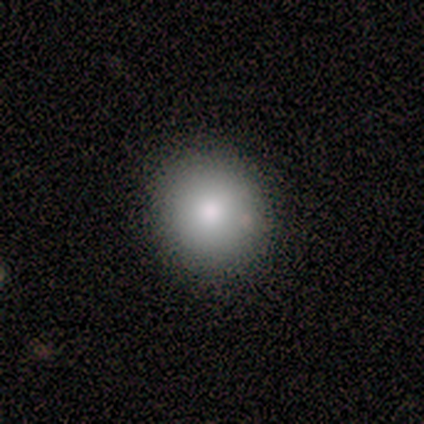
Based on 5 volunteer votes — Smooth or featured?
  - smooth: 100% *
  - featured or disk: 0%
  - star or artifact: 0%
How rounded?
  - round: 80% *
  - in between: 20%
  - cigar-shaped: 0%
Merging?
  - none: 80% *
  - minor disturbance: 20%
  - major disturbance: 0%
  - merger: 0%